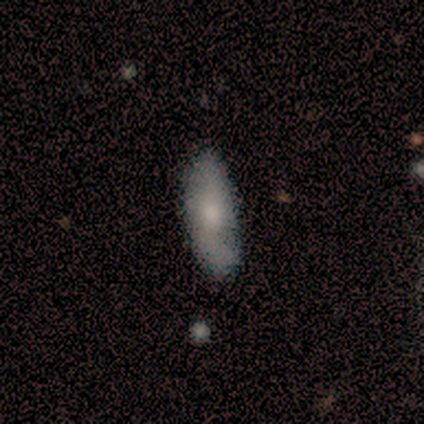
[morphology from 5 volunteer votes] Q: Smooth or featured?
A: smooth (60%); runner-up: featured or disk (40%)
Q: How rounded?
A: in between (67%); runner-up: cigar-shaped (33%)
Q: Merging?
A: none (80%); runner-up: minor disturbance (20%)